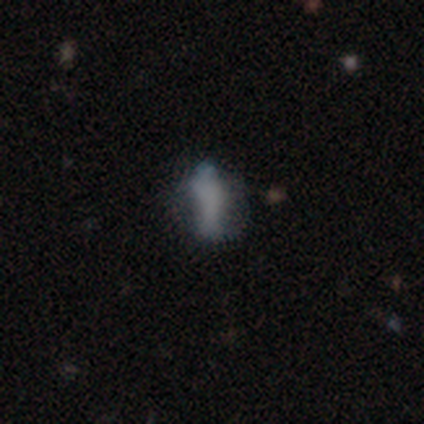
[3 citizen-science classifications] Smooth or featured? 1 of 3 (33%, tied with featured or disk and star or artifact) said smooth. How rounded? 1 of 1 (100%) said round. Merging? 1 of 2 (50%, tied with merger) said none.